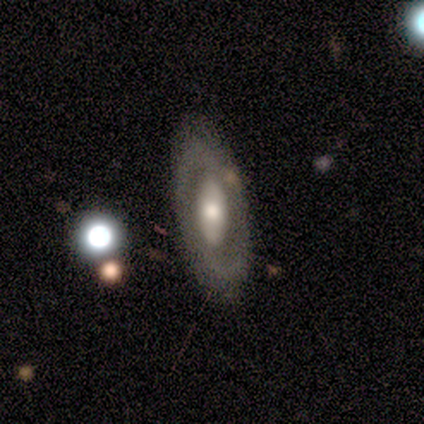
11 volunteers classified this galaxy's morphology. Smooth or featured? 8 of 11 (73%) said featured or disk. Edge-on disk? 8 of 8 (100%) said no. Bar? 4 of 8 (50%) said no. Spiral arms? 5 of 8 (62%) said no. Bulge size? 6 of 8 (75%) said moderate. Merging? 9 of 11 (82%) said none.